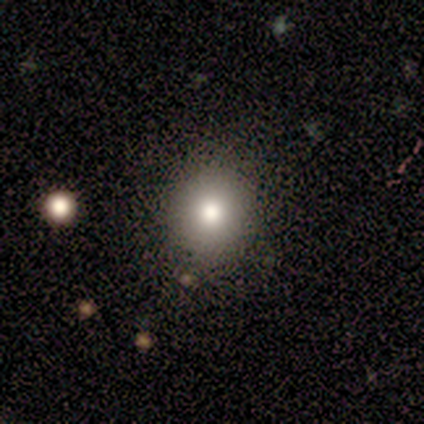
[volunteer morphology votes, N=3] This is clearly a smooth galaxy (100%). How rounded: likely in between (67%). Merging: likely none (67%).